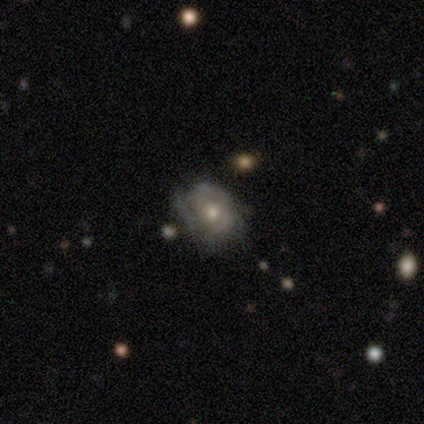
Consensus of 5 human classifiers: Volunteers were most divided on "smooth or featured" (2-way tie): smooth: 40%, featured or disk: 40%, star or artifact: 20%; "how rounded" (2-way tie): round: 50%, in between: 50%, cigar-shaped: 0%; "merging" (2-way tie): none: 50%, minor disturbance: 50%, major disturbance: 0%, merger: 0%.